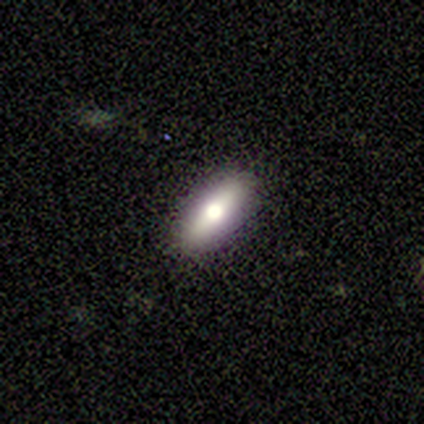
This appears to be a smooth galaxy with no disk features (60%) that is cigar-shaped (67%). Merging: none (80%).